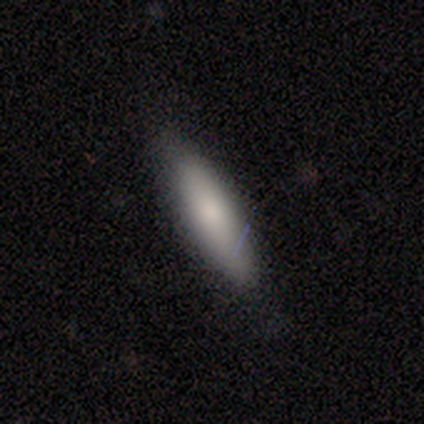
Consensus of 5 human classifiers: Smooth or featured?
  - smooth: 100% *
  - featured or disk: 0%
  - star or artifact: 0%
How rounded?
  - cigar-shaped: 80% *
  - in between: 20%
  - round: 0%
Merging?
  - none: 80% *
  - major disturbance: 20%
  - minor disturbance: 0%
  - merger: 0%